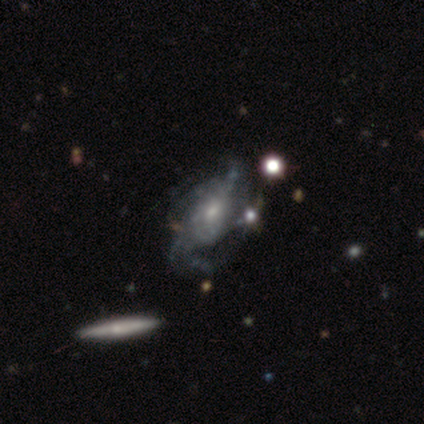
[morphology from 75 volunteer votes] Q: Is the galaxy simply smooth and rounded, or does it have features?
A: featured or disk — 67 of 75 (89%).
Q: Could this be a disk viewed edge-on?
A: no — 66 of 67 (99%).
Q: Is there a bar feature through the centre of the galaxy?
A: no — 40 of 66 (61%).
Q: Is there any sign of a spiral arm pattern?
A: yes — 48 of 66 (73%).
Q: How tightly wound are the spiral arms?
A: medium — 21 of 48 (44%).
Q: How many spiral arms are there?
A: can't tell — 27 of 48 (56%).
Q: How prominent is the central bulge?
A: small — 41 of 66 (62%).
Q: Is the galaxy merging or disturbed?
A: none — 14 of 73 (19%).